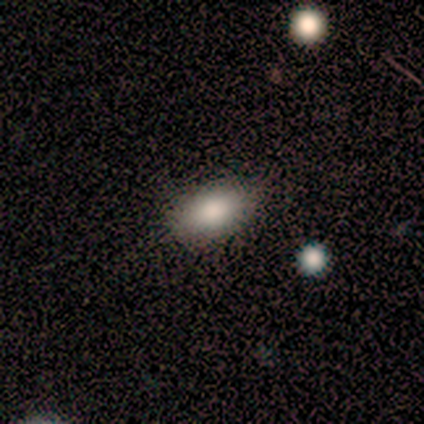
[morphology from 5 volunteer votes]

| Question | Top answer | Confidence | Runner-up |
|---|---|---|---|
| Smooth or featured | smooth | 100% | — |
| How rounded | in between | 80% | round (20%) |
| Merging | none | 100% | — |